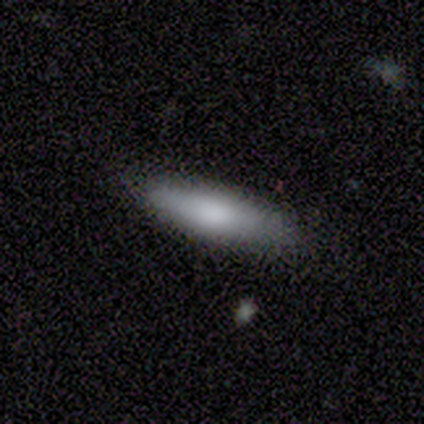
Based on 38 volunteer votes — Overall: smooth (82%). How rounded: cigar-shaped (55%; in between 45%). Merging: none (97%).